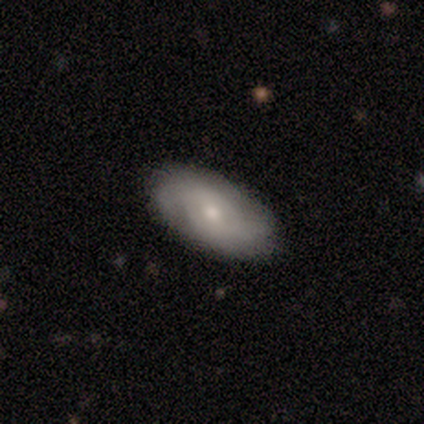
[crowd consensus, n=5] A featured or disk galaxy (60%) with no bar (100%), 2 (67%) medium (67%) spiral arms (100%) and a small central bulge (100%). Merging: none (80%).